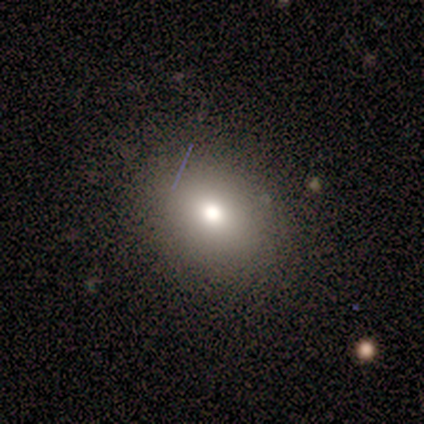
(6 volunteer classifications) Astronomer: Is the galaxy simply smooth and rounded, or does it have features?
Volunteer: smooth — 83%.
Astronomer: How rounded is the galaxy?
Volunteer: in between — 80%.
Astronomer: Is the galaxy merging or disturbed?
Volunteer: none — 83%.